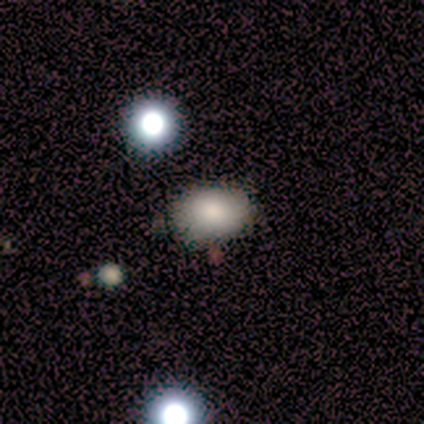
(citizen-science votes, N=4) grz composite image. It shows a smooth galaxy with no disk features (50%) that is in between round and cigar-shaped (100%). Merging: none (100%).